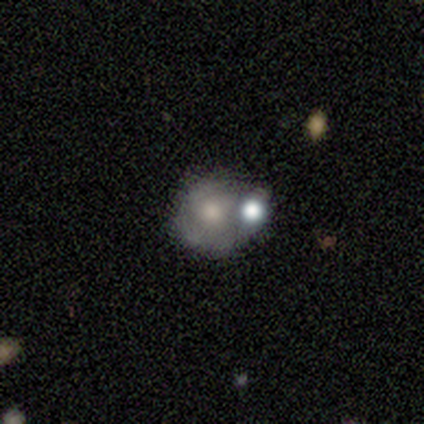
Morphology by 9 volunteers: A smooth galaxy with no disk features (56%) that is round (100%).

Vote fractions:
- Smooth or featured? smooth: 56% / featured or disk: 44% / star or artifact: 0%
- How rounded? round: 100% / in between: 0% / cigar-shaped: 0%
- Merging? merger: 56% / minor disturbance: 33% / major disturbance: 11% / none: 0%